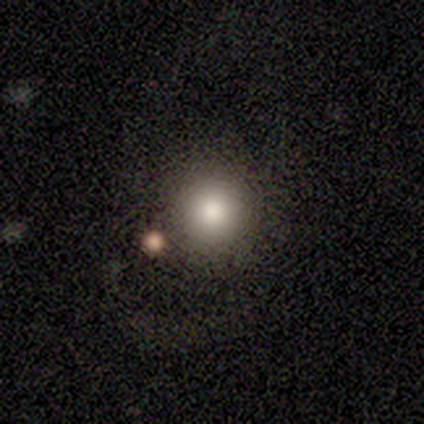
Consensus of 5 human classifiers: This appears to be a smooth galaxy with no disk features (80%) that is round (100%). Merging: none (100%).